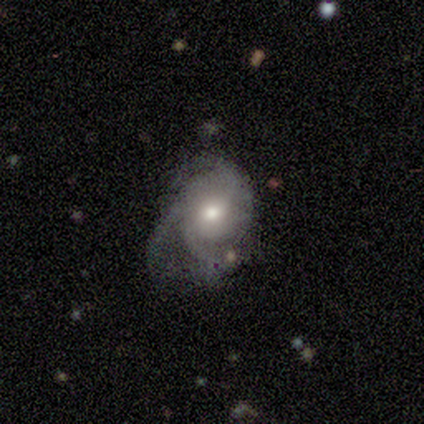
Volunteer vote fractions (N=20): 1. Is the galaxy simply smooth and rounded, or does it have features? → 95% featured or disk, 5% star or artifact, 0% smooth.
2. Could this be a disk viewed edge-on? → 95% no, 5% yes.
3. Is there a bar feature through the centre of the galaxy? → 67% no, 28% weak, 6% strong.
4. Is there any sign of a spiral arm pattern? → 94% yes, 6% no.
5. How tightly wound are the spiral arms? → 41% loose, 35% medium, 24% tight.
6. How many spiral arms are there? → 82% 3, 12% can't tell, 6% 2, 0% 1, 0% 4, 0% more than 4.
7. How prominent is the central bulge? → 78% moderate, 17% small, 6% large, 0% dominant, 0% none.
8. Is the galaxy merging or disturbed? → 42% none (tied), 42% major disturbance (tied), 16% minor disturbance, 0% merger.